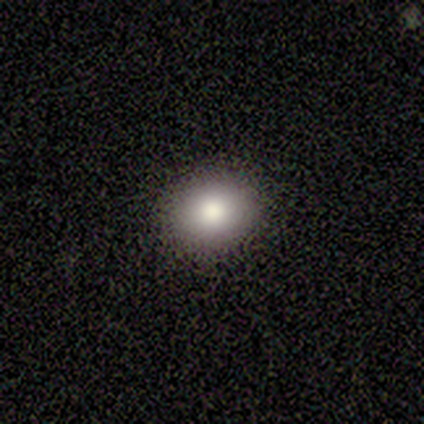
smooth-or-featured: smooth: 60% | featured or disk: 40% | star or artifact: 0%
  how-rounded: round: 100% | in between: 0% | cigar-shaped: 0%
  merging: none: 100% | minor disturbance: 0% | major disturbance: 0% | merger: 0%